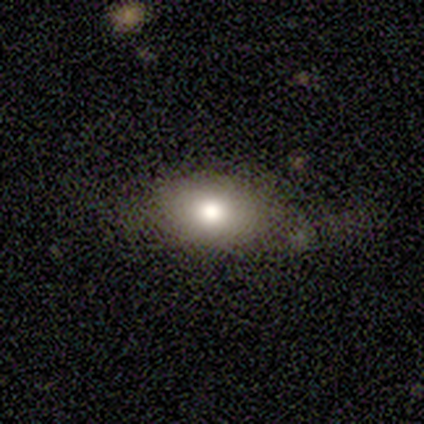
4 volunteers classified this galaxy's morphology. A smooth galaxy with no disk features (50%) that is in between round and cigar-shaped (100%).

Vote fractions:
- Smooth or featured? smooth: 50% / featured or disk: 25% / star or artifact: 25%
- How rounded? in between: 100% / round: 0% / cigar-shaped: 0%
- Merging? major disturbance: 67% / none: 33% / minor disturbance: 0% / merger: 0%